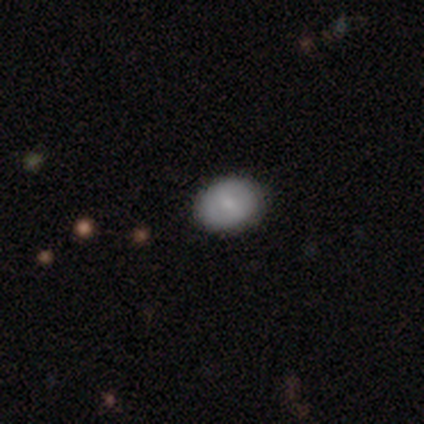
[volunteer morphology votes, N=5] smooth_or_featured: smooth (p=0.60) [alt: featured or disk p=0.40]
how_rounded: in between (p=0.67) [alt: round p=0.33]
merging: none (p=0.80) [alt: minor disturbance p=0.20]